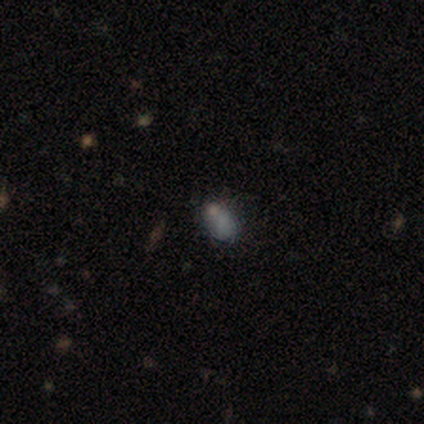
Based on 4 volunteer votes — Smooth or featured?
  - star or artifact: 75% *
  - smooth: 25%
  - featured or disk: 0%